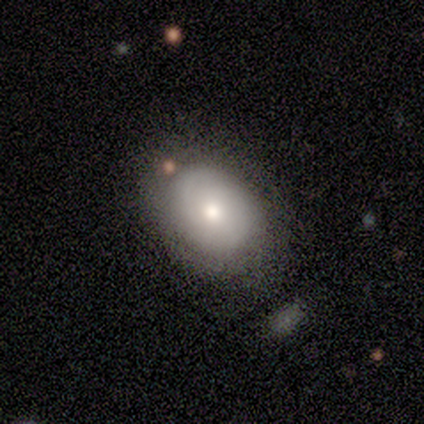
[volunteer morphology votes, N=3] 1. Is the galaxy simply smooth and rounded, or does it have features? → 67% smooth, 33% featured or disk, 0% star or artifact.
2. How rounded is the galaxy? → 100% in between, 0% round, 0% cigar-shaped.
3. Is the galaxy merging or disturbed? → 100% none, 0% minor disturbance, 0% major disturbance, 0% merger.